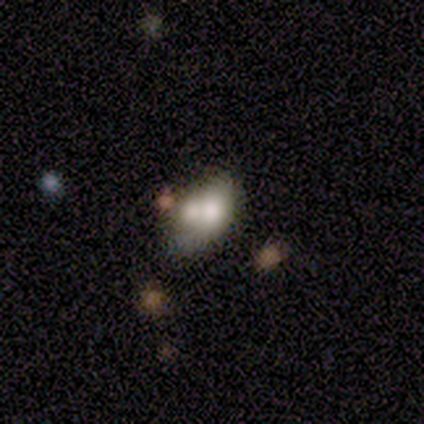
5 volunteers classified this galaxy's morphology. Overall: smooth (100%). How rounded: in between (100%). Merging: minor disturbance (60%; none 20%).